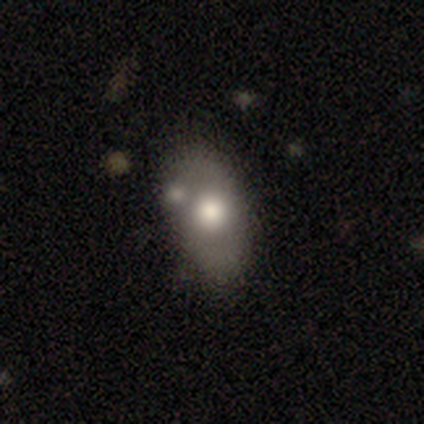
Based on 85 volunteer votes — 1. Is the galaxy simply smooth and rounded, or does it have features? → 59% smooth, 29% featured or disk, 12% star or artifact.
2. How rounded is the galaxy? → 88% in between, 8% round, 4% cigar-shaped.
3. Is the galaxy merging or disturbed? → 59% none, 24% minor disturbance, 15% merger, 3% major disturbance.